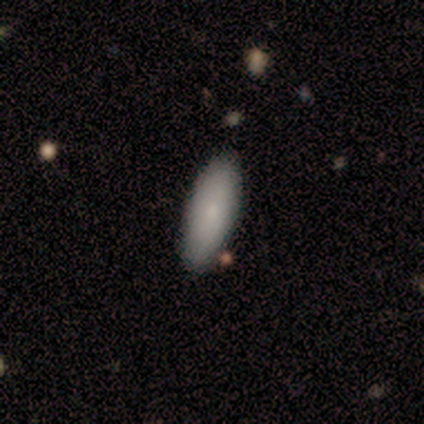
Q: Smooth or featured?
A: smooth (100%)
Q: How rounded?
A: in between (100%)
Q: Merging?
A: none (100%)